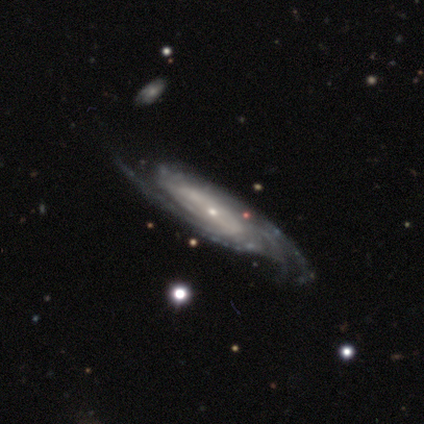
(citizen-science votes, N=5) Morphology: type=featured or disk (100%); edge-on=no (80%); bar=no (75%); spiral arms=yes (100%); winding=tight (50%, tied with loose); arm count=can't tell (75%); bulge=small (75%); merging=none (80%).